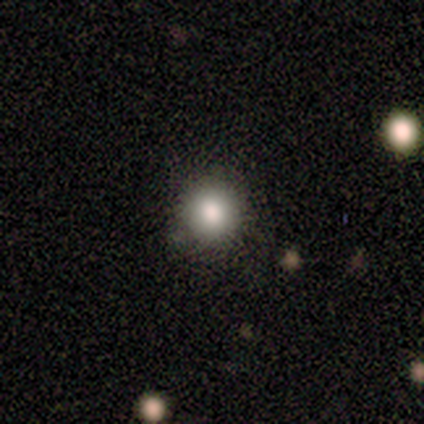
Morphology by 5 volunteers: This appears to be a smooth galaxy with no disk features (100%) that is round (60%). Merging: none (60%).